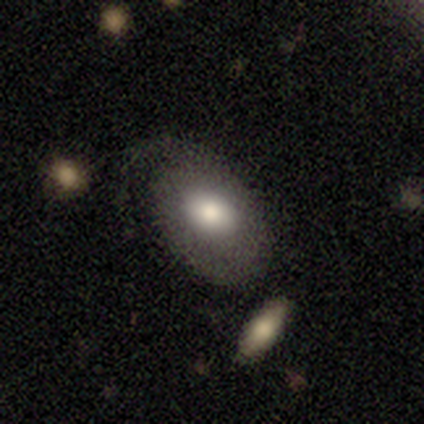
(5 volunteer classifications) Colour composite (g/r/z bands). It shows a smooth galaxy with no disk features (60%) that is in between round and cigar-shaped (100%). Merging: none (40%, tied with major disturbance).